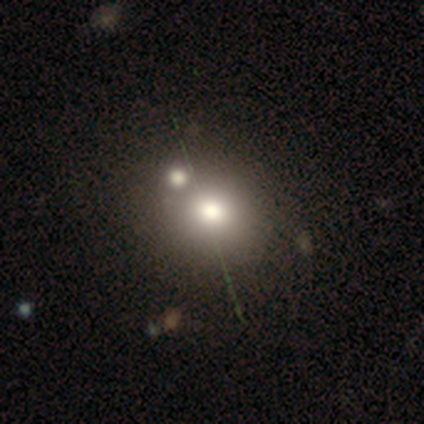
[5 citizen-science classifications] Smooth or featured: smooth — 100%
How rounded: round — 60% (in between — 40%)
Merging: merger — 60% (none — 40%)